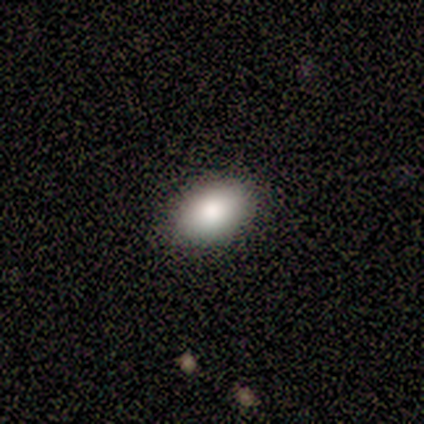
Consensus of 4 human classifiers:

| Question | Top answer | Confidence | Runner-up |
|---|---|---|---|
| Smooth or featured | smooth | 100% | — |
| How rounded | in between | 100% | — |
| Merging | none | 75% | minor disturbance (25%) |